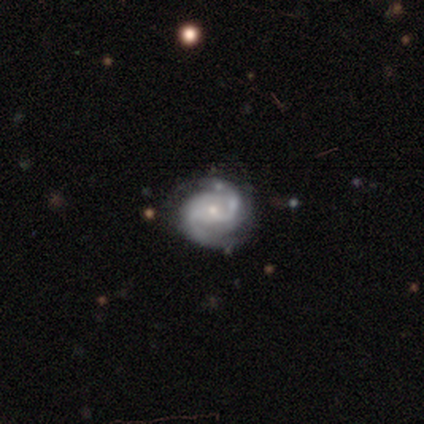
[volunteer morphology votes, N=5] A featured or disk galaxy (100%) with no bar (60%), 2 (100%) medium (60%) spiral arms (100%) and a small central bulge (100%). Merging: none (100%).